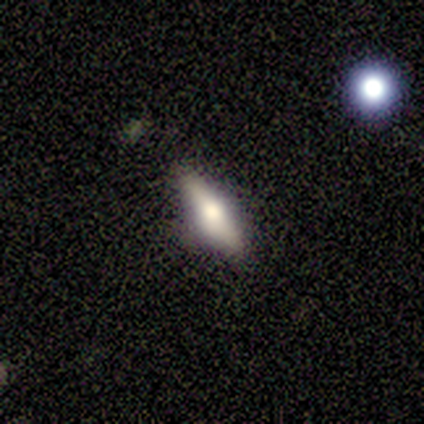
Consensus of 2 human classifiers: Q: Smooth or featured?
A: smooth (100%)
Q: How rounded?
A: in between (100%)
Q: Merging?
A: none (50%); tied with: minor disturbance (50%)